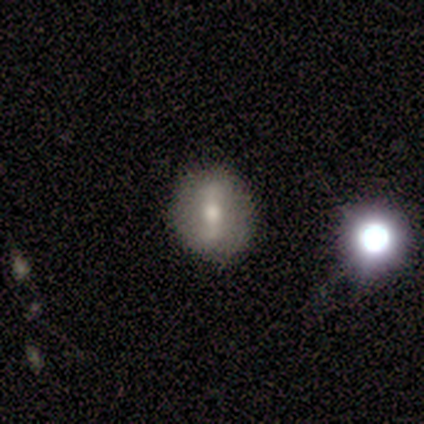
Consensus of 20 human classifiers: smooth 50%, featured or disk 40%, star or artifact 10%. Down the decision tree: how rounded — round (80%); merging — none (100%).